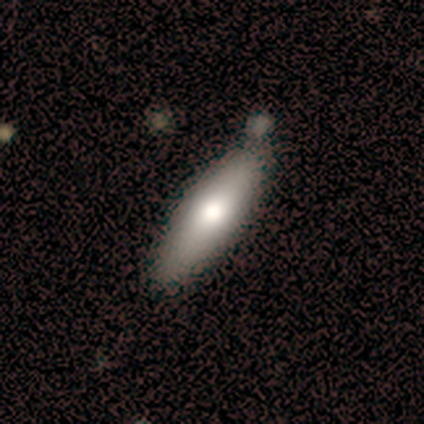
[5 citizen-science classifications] smooth 60%, featured or disk 20%, star or artifact 20%. Down the decision tree: how rounded — cigar-shaped (67%); merging — none (50%).